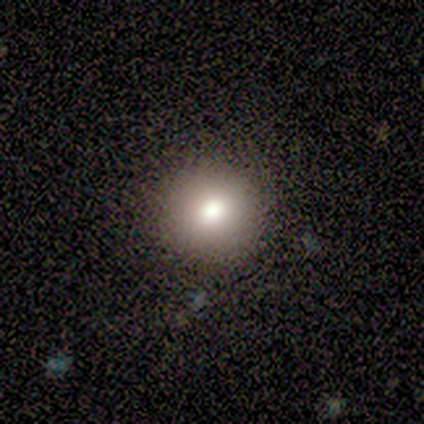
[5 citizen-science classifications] Smooth or featured?
  - smooth: 60% *
  - featured or disk: 40%
  - star or artifact: 0%
How rounded?
  - round: 100% *
  - in between: 0%
  - cigar-shaped: 0%
Merging?
  - none: 100% *
  - minor disturbance: 0%
  - major disturbance: 0%
  - merger: 0%